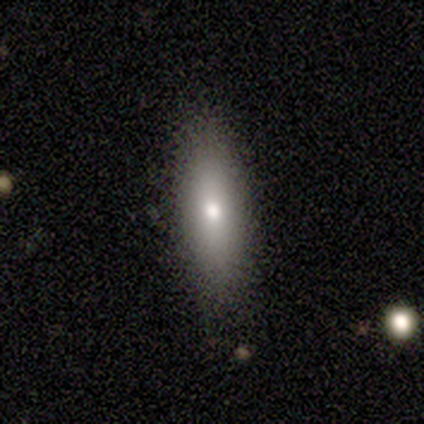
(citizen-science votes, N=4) Smooth or featured? 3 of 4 (75%) said smooth. How rounded? 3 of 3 (100%) said cigar-shaped. Merging? 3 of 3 (100%) said none.